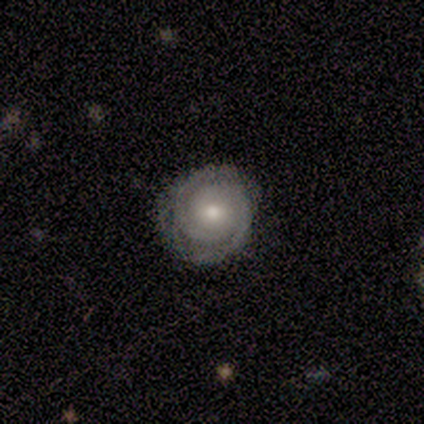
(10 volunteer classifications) Morphology: type=featured or disk (90%); edge-on=no (100%); bar=no (78%); spiral arms=yes (100%); winding=tight (67%); arm count=2 (100%); bulge=moderate (78%); merging=none (70%).